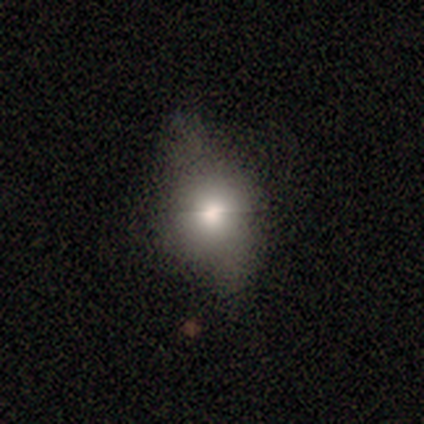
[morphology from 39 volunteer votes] Smooth or featured? smooth (72%)
How rounded? in between (54%)
Merging? none (40%, tied with minor disturbance)